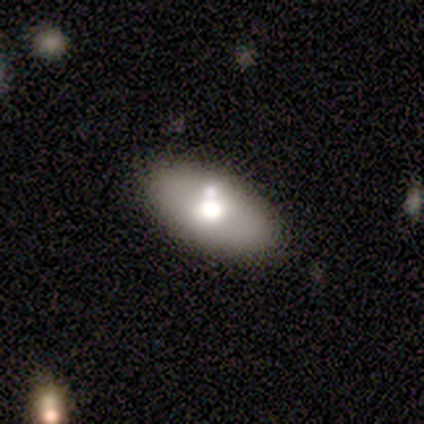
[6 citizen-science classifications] Volunteers were most divided on "merging": none: 80%, merger: 20%, minor disturbance: 0%, major disturbance: 0%. More confident: how rounded — in between (100%); smooth or featured — smooth (83%).